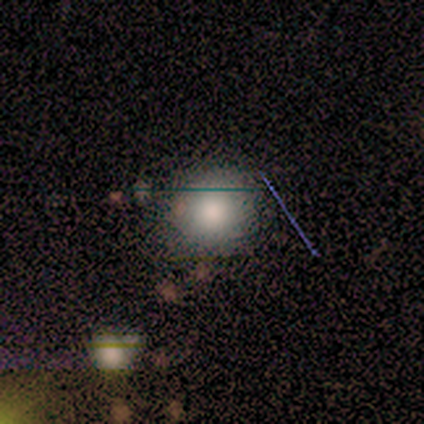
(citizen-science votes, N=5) A smooth galaxy with no disk features (100%) that is round (80%). Merging: none (80%).